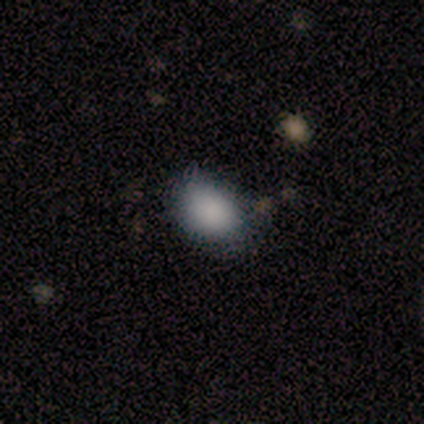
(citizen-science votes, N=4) A smooth galaxy with no disk features (75%) that is in between round and cigar-shaped (67%). Merging: none (100%).